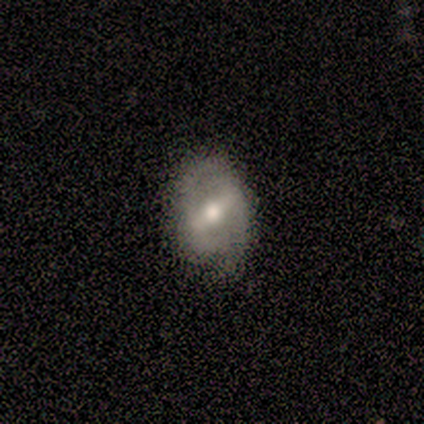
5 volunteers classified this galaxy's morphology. This is likely a smooth galaxy (60%). How rounded: likely in between (67%). Merging: clearly none (80%).